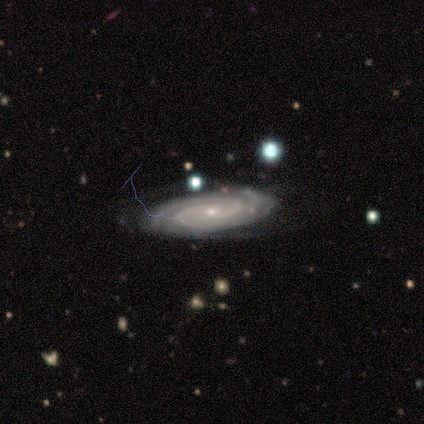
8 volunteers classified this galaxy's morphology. Smooth or featured?
  - featured or disk: 88% *
  - smooth: 12%
  - star or artifact: 0%
Edge-on disk?
  - no: 100% *
  - yes: 0%
Bar?
  - no: 86% *
  - strong: 14%
  - weak: 0%
Spiral arms?
  - yes: 100% *
  - no: 0%
Spiral winding?
  - tight: 86% *
  - medium: 14%
  - loose: 0%
Spiral arm count?
  - 2: 71% *
  - 4: 29%
  - 1: 0%
  - 3: 0%
  - more than 4: 0%
  - can't tell: 0%
Bulge size?
  - small: 71% *
  - moderate: 29%
  - dominant: 0%
  - large: 0%
  - none: 0%
Merging?
  - none: 88% *
  - minor disturbance: 12%
  - major disturbance: 0%
  - merger: 0%